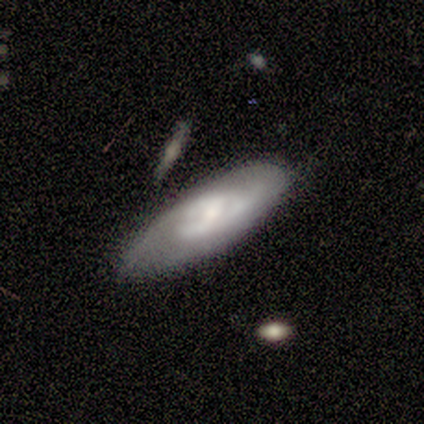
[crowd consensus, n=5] featured or disk 80%, smooth 20%, star or artifact 0%. Down the decision tree: edge-on disk — no (75%); bar — weak (100%); spiral arms — yes (100%); spiral arm count — 2 (67%); spiral winding — tight (100%); bulge size — moderate (67%); merging — none (100%).